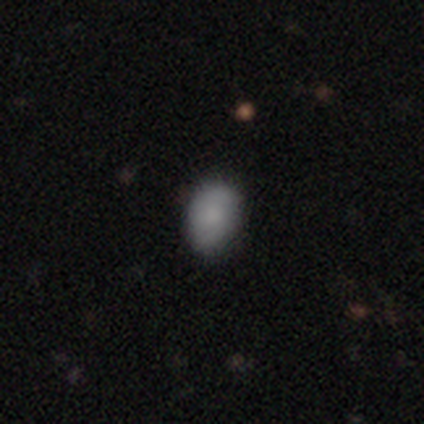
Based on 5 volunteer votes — smooth_or_featured: smooth (p=1.00)
how_rounded: in between (p=1.00)
merging: none (p=0.60) [alt: minor disturbance p=0.40]